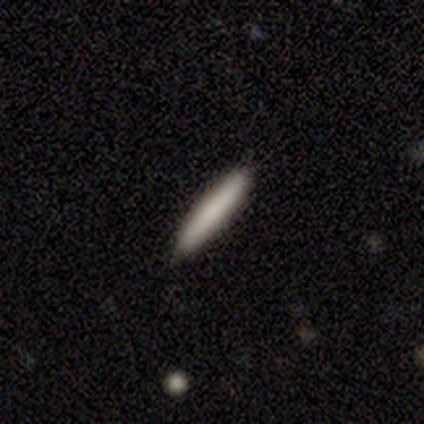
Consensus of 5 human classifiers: Overall: smooth (60%; featured or disk 40%). How rounded: cigar-shaped (100%). Merging: none (100%).